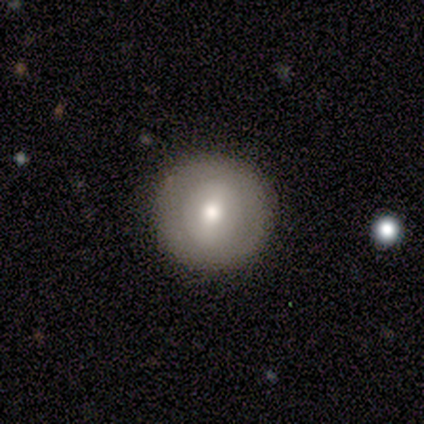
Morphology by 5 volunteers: smooth_or_featured: smooth (p=0.60) [alt: featured or disk p=0.20]
how_rounded: round (p=1.00)
merging: none (p=0.75) [alt: major disturbance p=0.25]